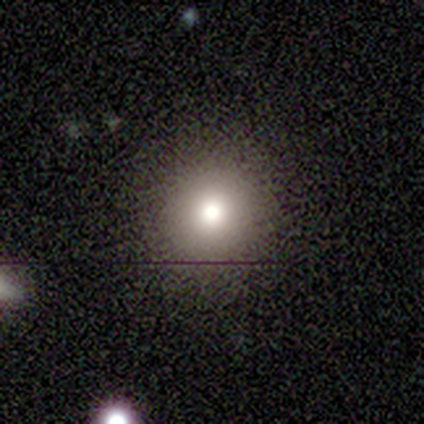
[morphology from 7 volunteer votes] smooth-or-featured: smooth: 57% | star or artifact: 29% | featured or disk: 14%
  how-rounded: round: 100% | in between: 0% | cigar-shaped: 0%
  merging: none: 100% | minor disturbance: 0% | major disturbance: 0% | merger: 0%